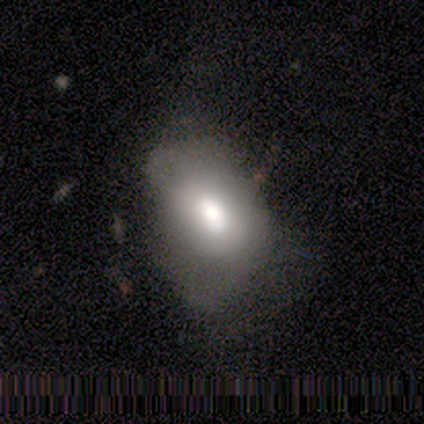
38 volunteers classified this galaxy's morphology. type=smooth (66%); roundness=in between (88%); merging=major disturbance (39%).